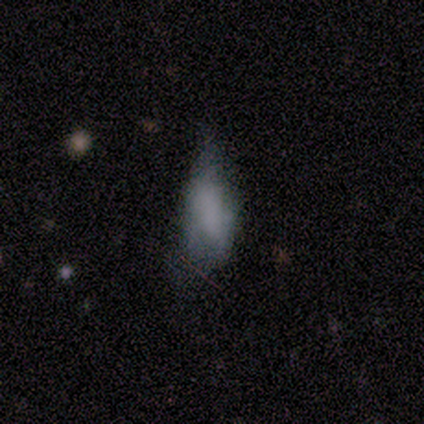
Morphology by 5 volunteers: Smooth or featured? 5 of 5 (100%) said smooth. How rounded? 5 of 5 (100%) said in between. Merging? 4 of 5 (80%) said minor disturbance.